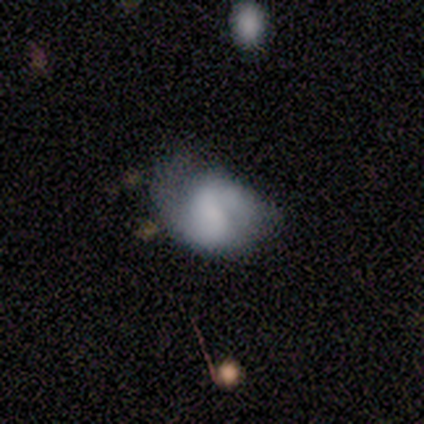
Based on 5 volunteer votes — A featured or disk galaxy (60%) with a weak bar (100%), 2 (100%) medium (50%, tied with loose) spiral arms (67%) and no central bulge (67%). Merging: none (50%).